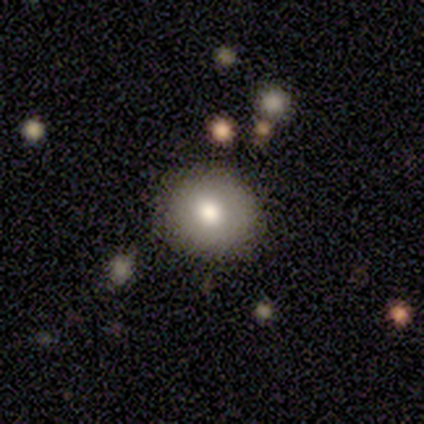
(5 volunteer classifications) Overall: smooth (80%). How rounded: round (75%). Merging: none (60%; minor disturbance 40%).